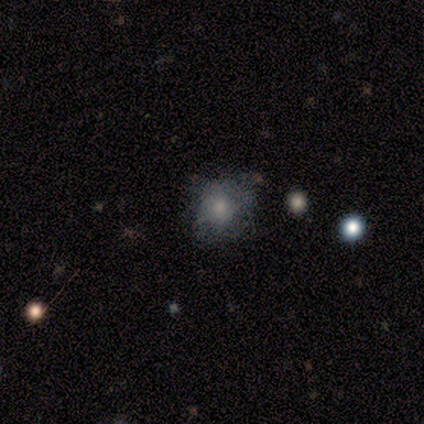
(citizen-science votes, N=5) Smooth or featured? 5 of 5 (100%) said smooth. How rounded? 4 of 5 (80%) said round. Merging? 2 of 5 (40%, tied with minor disturbance) said none.